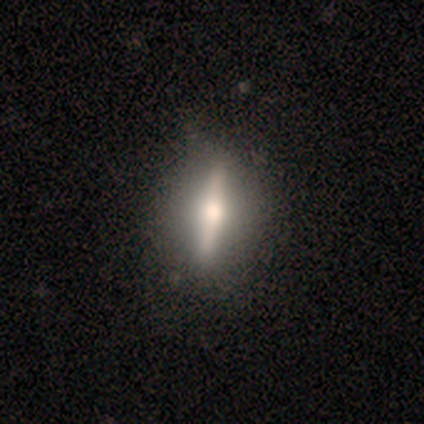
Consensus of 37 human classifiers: A featured or disk galaxy (62%) viewed edge-on (87%) with a rounded central bulge (100%).

Vote fractions:
- Smooth or featured? featured or disk: 62% / smooth: 30% / star or artifact: 8%
- Edge-on disk? yes: 87% / no: 13%
- Edge-on bulge? rounded: 100% / boxy: 0% / none: 0%
- Merging? none: 76% / minor disturbance: 9% / major disturbance: 9% / merger: 6%